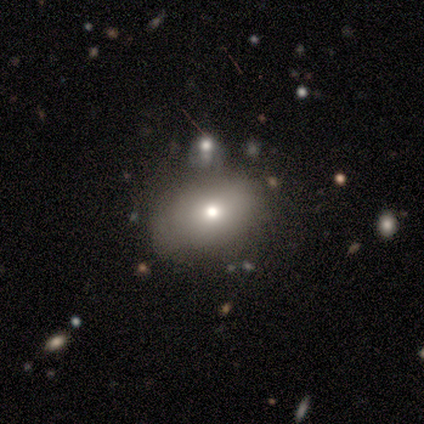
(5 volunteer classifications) smooth 60%, featured or disk 40%, star or artifact 0%. Down the decision tree: how rounded — in between (67%); merging — none (80%).